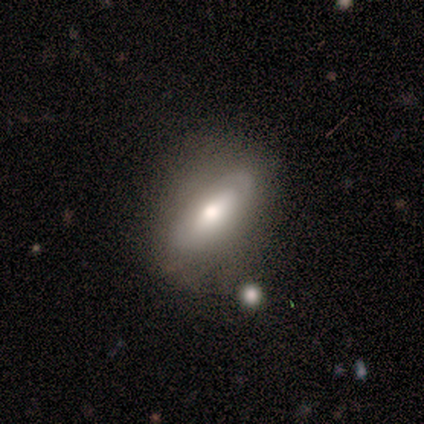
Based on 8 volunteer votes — This is possibly a smooth galaxy (50%, tied with featured or disk). How rounded: likely in between (75%). Merging: likely none (62%).